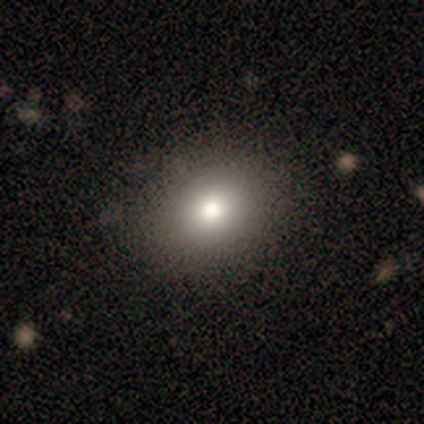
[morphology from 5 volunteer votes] Volunteers were most divided on "smooth or featured" (2-way tie): smooth: 40%, star or artifact: 40%, featured or disk: 20%; "how rounded" (2-way tie): round: 50%, in between: 50%, cigar-shaped: 0%. More confident: merging — none (100%).